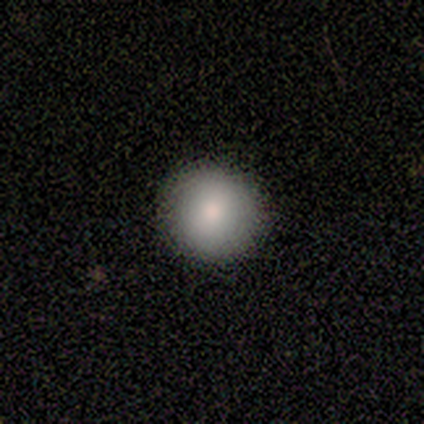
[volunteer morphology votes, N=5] A smooth galaxy with no disk features (40%, tied with star or artifact) that is round (100%). Merging: none (100%).